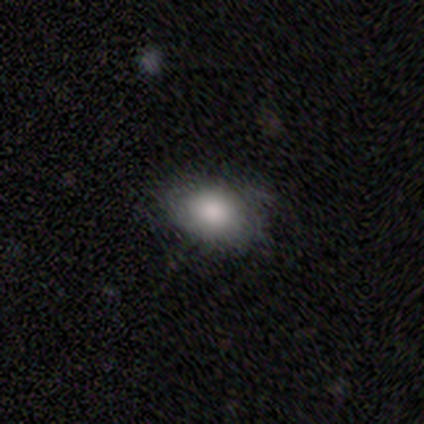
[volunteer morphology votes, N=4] This is possibly a smooth galaxy (50%). How rounded: clearly in between (100%). Merging: likely none (67%).